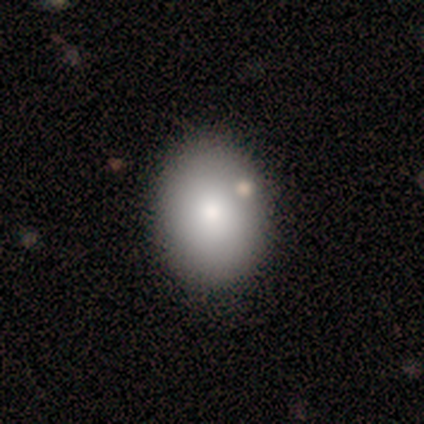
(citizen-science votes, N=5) This appears to be a smooth galaxy with no disk features (80%) that is in between round and cigar-shaped (75%). Merging: none (75%).